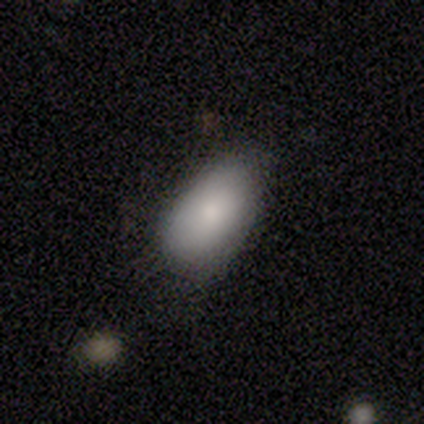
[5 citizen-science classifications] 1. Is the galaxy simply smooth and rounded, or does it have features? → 60% smooth, 40% featured or disk, 0% star or artifact.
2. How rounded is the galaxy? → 100% in between, 0% round, 0% cigar-shaped.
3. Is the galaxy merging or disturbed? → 60% minor disturbance, 40% none, 0% major disturbance, 0% merger.